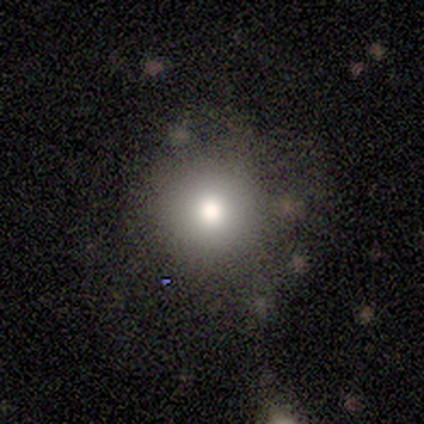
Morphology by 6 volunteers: A smooth galaxy with no disk features (50%) that is round (100%). Merging: none (50%).